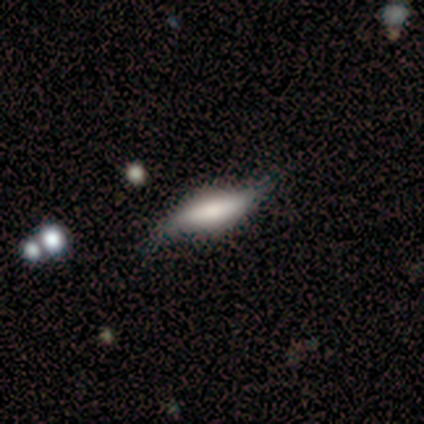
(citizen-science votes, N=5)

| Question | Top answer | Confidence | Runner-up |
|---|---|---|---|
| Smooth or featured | smooth | 60% | featured or disk (20%) |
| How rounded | cigar-shaped | 67% | in between (33%) |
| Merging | minor disturbance | 75% | none (25%) |